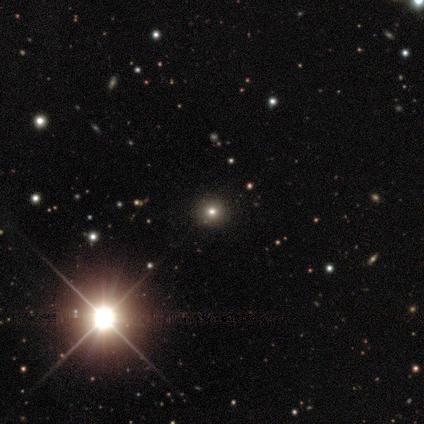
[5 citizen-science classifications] A smooth galaxy with no disk features (80%) that is round (100%). Merging: none (100%).